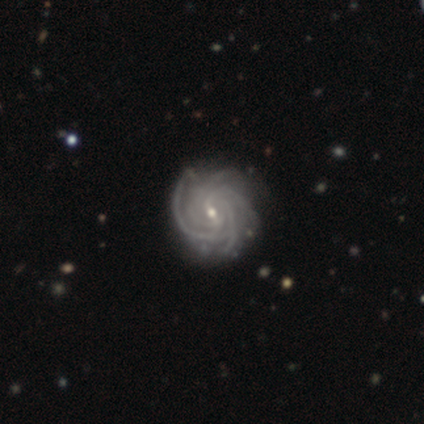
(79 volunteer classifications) Morphology: type=featured or disk (95%); edge-on=no (97%); bar=weak (59%); spiral arms=yes (100%); winding=tight (86%); arm count=4 (52%); bulge=small (77%); merging=none (43%).